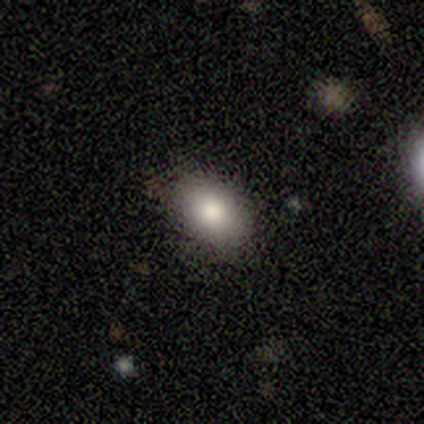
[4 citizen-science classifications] Smooth or featured? smooth (100%)
How rounded? in between (100%)
Merging? none (100%)